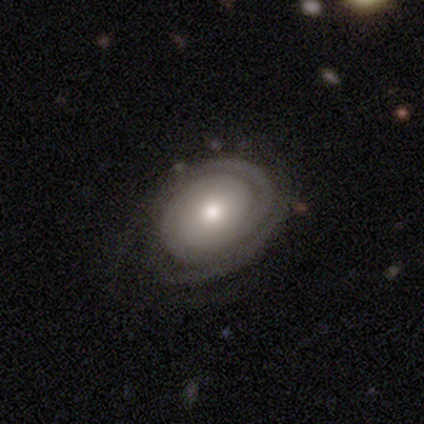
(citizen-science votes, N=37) Q: Smooth or featured?
A: featured or disk (81%); runner-up: smooth (16%)
Q: Edge-on disk?
A: no (97%); runner-up: yes (3%)
Q: Bar?
A: no (79%); runner-up: weak (17%)
Q: Spiral arms?
A: yes (90%); runner-up: no (10%)
Q: Spiral winding?
A: tight (92%); runner-up: medium (4%)
Q: Spiral arm count?
A: 2 (42%); runner-up: can't tell (27%)
Q: Bulge size?
A: moderate (52%); runner-up: small (38%)
Q: Merging?
A: none (75%); runner-up: minor disturbance (22%)